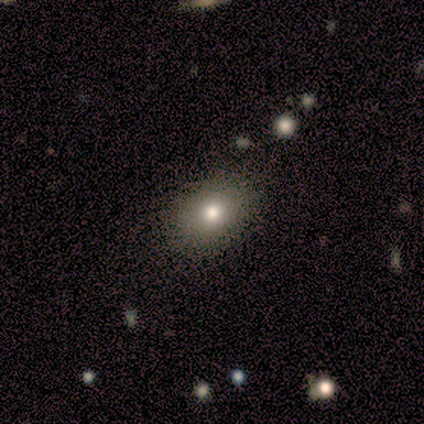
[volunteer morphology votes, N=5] Smooth or featured? 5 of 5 (100%) said smooth. How rounded? 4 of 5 (80%) said in between. Merging? 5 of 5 (100%) said none.